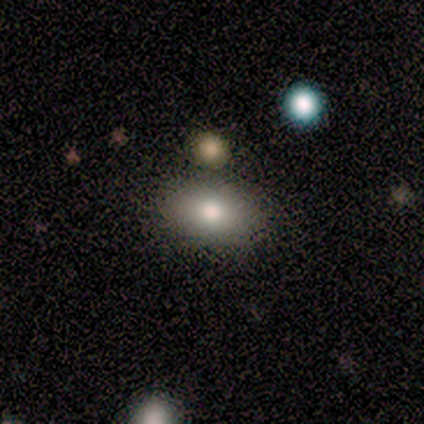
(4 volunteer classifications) This appears to be a smooth galaxy with no disk features (100%) that is in between round and cigar-shaped (100%). Merging: none (100%).